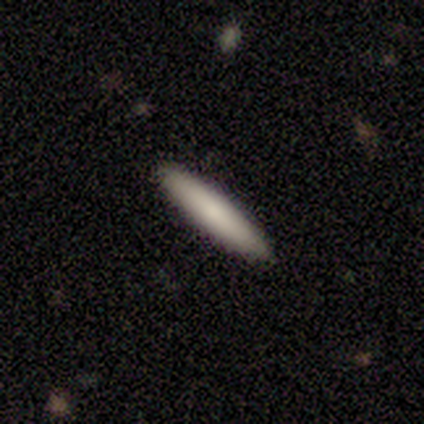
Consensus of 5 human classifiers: A smooth galaxy with no disk features (80%) that is cigar-shaped (100%).

Vote fractions:
- Smooth or featured? smooth: 80% / star or artifact: 20% / featured or disk: 0%
- How rounded? cigar-shaped: 100% / round: 0% / in between: 0%
- Merging? none: 100% / minor disturbance: 0% / major disturbance: 0% / merger: 0%